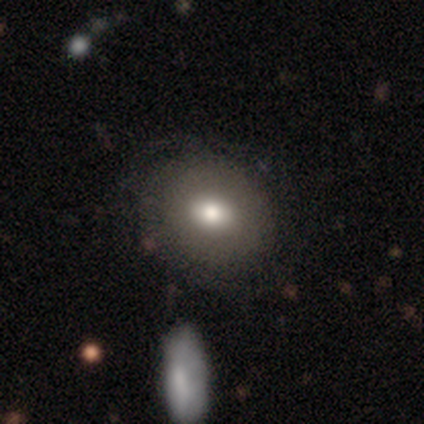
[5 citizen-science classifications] Volunteers were most divided on "smooth or featured": smooth: 60%, featured or disk: 40%, star or artifact: 0%. More confident: merging — none (100%); how rounded — round (67%).